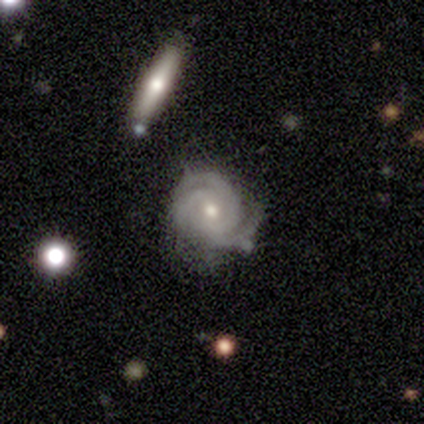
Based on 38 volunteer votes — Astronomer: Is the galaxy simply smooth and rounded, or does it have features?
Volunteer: featured or disk — 92%.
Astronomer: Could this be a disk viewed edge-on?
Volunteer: no — 89%.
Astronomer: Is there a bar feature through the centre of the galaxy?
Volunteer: no — 71%.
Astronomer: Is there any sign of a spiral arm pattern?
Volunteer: yes — 100%.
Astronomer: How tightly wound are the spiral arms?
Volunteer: tight — 61%.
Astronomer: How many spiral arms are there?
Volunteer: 3 — 71%.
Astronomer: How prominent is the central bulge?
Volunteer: moderate — 61% (runner-up: small, 39%).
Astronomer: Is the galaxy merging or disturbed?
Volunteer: none — 57% (runner-up: minor disturbance, 32%).